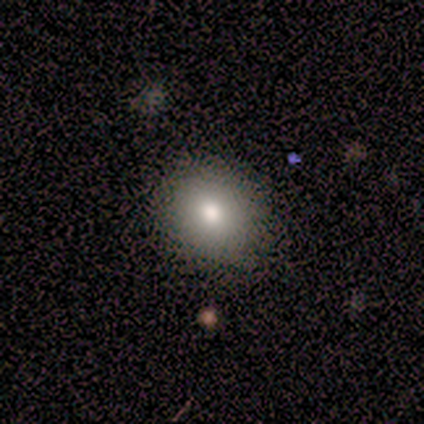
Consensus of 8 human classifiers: Smooth or featured: smooth — 50% (featured or disk — 38%)
How rounded: round — 50% (tied with in between — 50%)
Merging: none — 86% (minor disturbance — 14%)